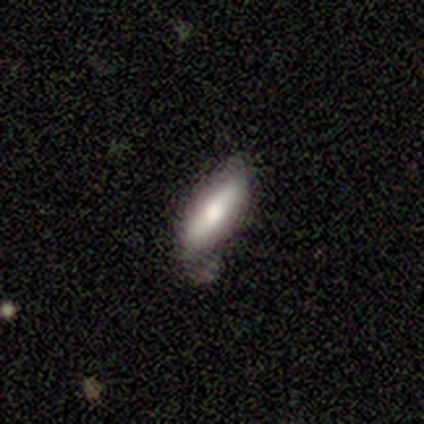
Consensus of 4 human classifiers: Smooth or featured?
  - smooth: 75% *
  - featured or disk: 25%
  - star or artifact: 0%
How rounded?
  - in between: 67% *
  - cigar-shaped: 33%
  - round: 0%
Merging?
  - none: 50% *
  - minor disturbance: 25%
  - major disturbance: 25%
  - merger: 0%